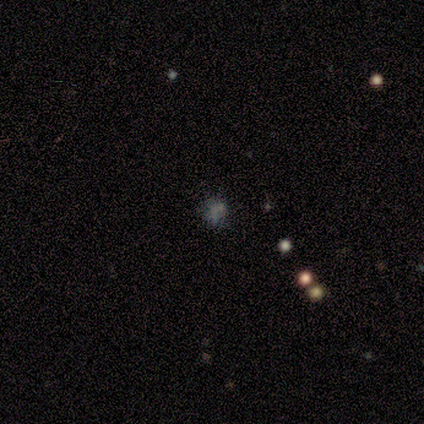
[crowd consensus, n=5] A featured or disk galaxy (40%, tied with star or artifact) with no bar (100%), no spiral arms (100%) and no central bulge (100%).

Vote fractions:
- Smooth or featured? featured or disk: 40% (tied) / star or artifact: 40% (tied) / smooth: 20%
- Edge-on disk? no: 100% / yes: 0%
- Bar? no: 100% / strong: 0% / weak: 0%
- Spiral arms? no: 100% / yes: 0%
- Bulge size? none: 100% / dominant: 0% / large: 0% / moderate: 0% / small: 0%
- Merging? none: 33% (tied) / minor disturbance: 33% (tied) / major disturbance: 33% (tied) / merger: 0%